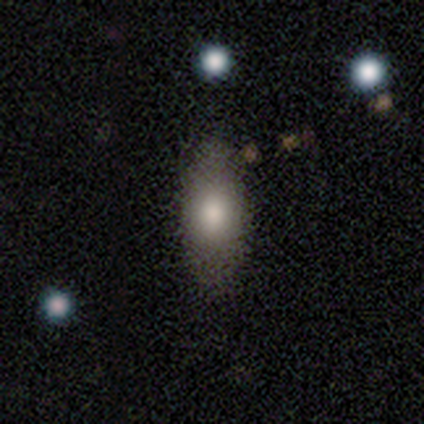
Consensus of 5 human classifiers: Smooth or featured: smooth — 80% (featured or disk — 20%)
How rounded: in between — 75% (cigar-shaped — 25%)
Merging: none — 100%